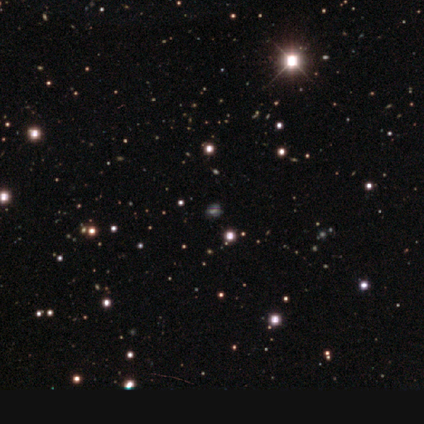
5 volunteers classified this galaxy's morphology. smooth-or-featured: star or artifact: 100% | smooth: 0% | featured or disk: 0%